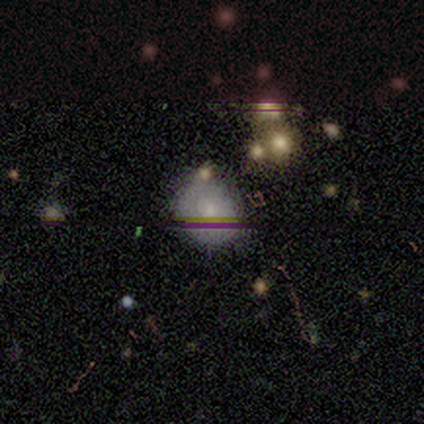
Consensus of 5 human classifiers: Morphology: type=smooth (100%); roundness=round (80%); merging=none (80%).